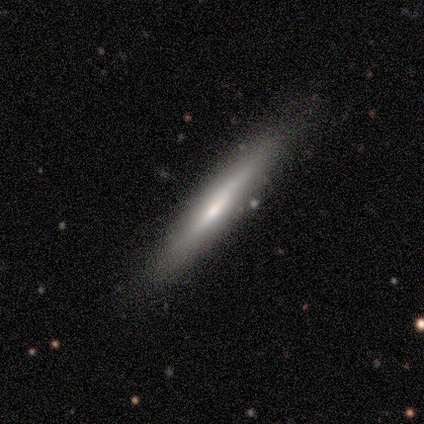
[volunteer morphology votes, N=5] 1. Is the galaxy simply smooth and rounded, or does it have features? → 60% smooth, 40% featured or disk, 0% star or artifact.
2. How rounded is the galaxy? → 100% cigar-shaped, 0% round, 0% in between.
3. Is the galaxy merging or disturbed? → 100% none, 0% minor disturbance, 0% major disturbance, 0% merger.